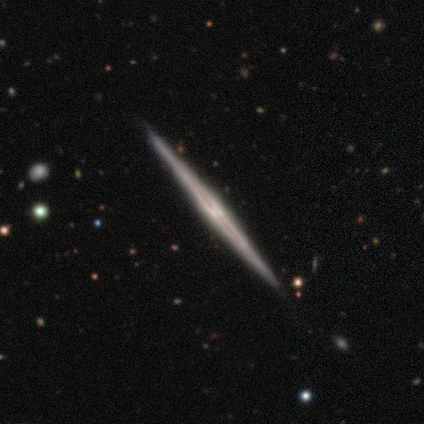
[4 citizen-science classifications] A featured or disk galaxy (100%) viewed edge-on (100%) with no central bulge (100%). Merging: none (100%).